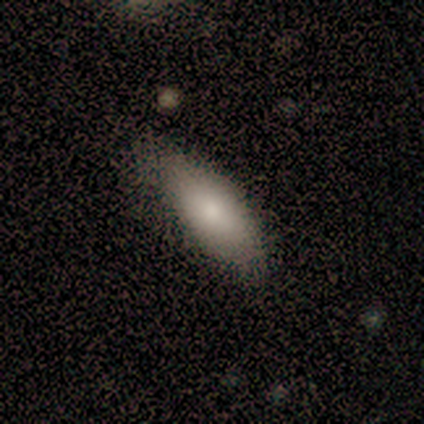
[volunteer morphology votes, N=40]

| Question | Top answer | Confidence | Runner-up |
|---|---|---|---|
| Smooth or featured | smooth | 88% | featured or disk (12%) |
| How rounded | in between | 89% | cigar-shaped (11%) |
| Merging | none | 55% | minor disturbance (25%) |